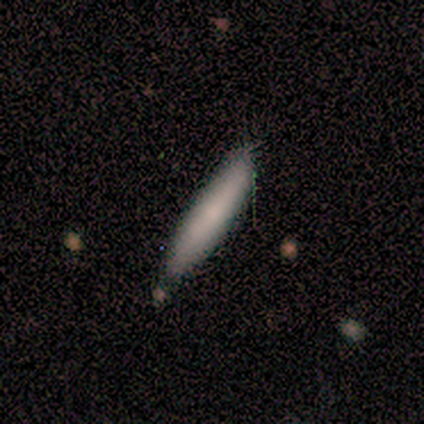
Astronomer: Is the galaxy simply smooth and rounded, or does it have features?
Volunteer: smooth — 67%.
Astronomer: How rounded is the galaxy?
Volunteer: cigar-shaped — 100%.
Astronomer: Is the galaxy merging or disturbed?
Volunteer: none — 100%.